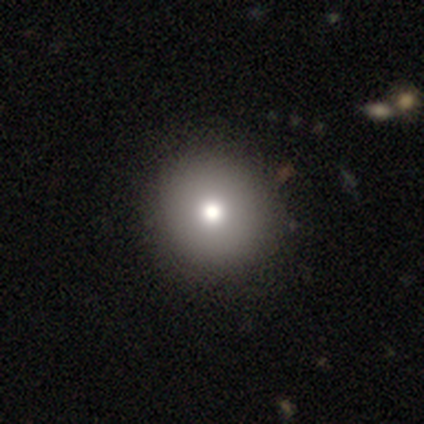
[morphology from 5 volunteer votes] A smooth galaxy with no disk features (60%) that is round (67%). Merging: none (100%).